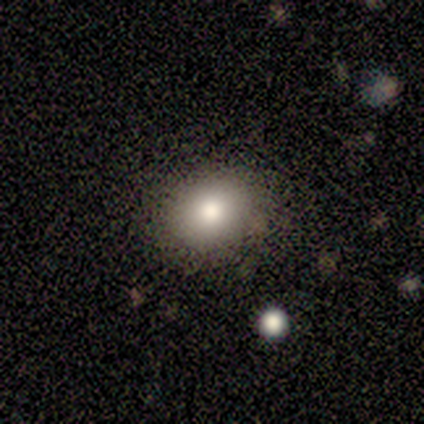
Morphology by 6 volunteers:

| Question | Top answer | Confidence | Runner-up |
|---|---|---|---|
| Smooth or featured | smooth | 83% | featured or disk (17%) |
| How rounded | round | 60% | in between (40%) |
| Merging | none | 83% | minor disturbance (17%) |